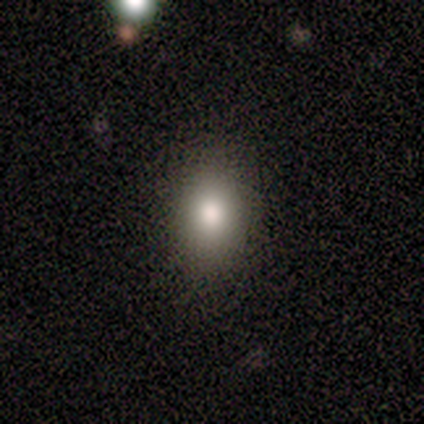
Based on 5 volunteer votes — Volunteers were most divided on "smooth or featured": smooth: 60%, star or artifact: 40%, featured or disk: 0%. More confident: how rounded — in between (67%); merging — none (67%).